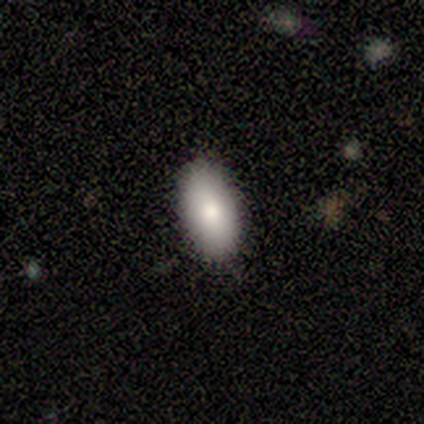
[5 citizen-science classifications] Overall: smooth (80%). How rounded: in between (100%). Merging: none (100%).